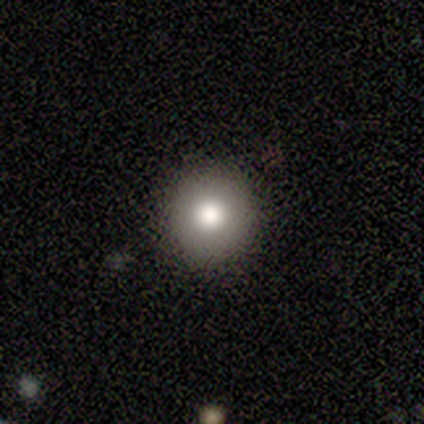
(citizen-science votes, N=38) Smooth or featured?
  - smooth: 76% *
  - featured or disk: 13%
  - star or artifact: 11%
How rounded?
  - round: 97% *
  - in between: 3%
  - cigar-shaped: 0%
Merging?
  - none: 88% *
  - merger: 6%
  - minor disturbance: 3%
  - major disturbance: 3%